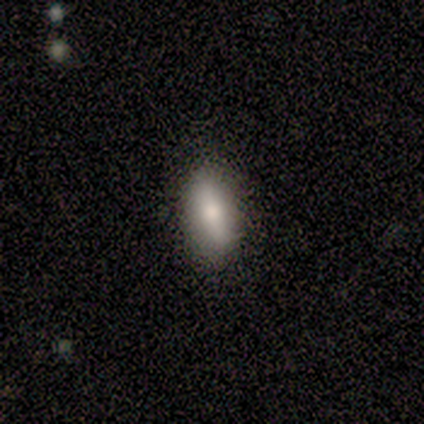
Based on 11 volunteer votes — Smooth or featured?
  - smooth: 73% *
  - featured or disk: 27%
  - star or artifact: 0%
How rounded?
  - in between: 88% *
  - cigar-shaped: 12%
  - round: 0%
Merging?
  - none: 100% *
  - minor disturbance: 0%
  - major disturbance: 0%
  - merger: 0%